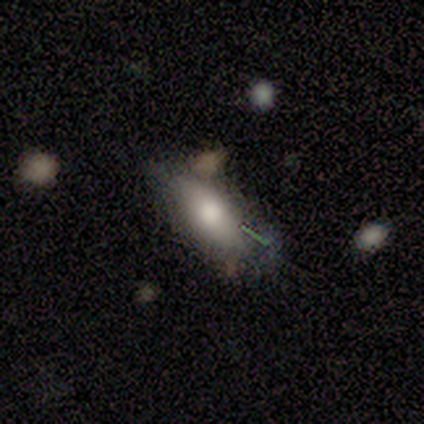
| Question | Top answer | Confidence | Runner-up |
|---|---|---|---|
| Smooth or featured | smooth | 100% | — |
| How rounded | in between | 100% | — |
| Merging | minor disturbance | 50% | none (25%) |